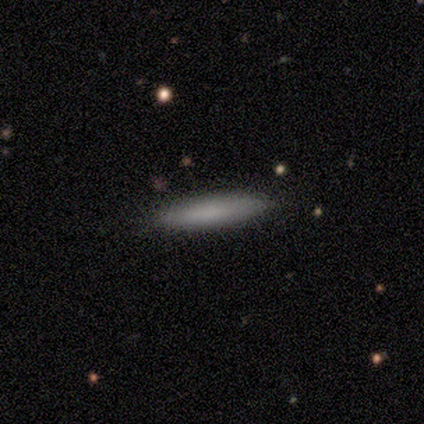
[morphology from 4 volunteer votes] Volunteers were most divided on "merging": none: 75%, minor disturbance: 25%, major disturbance: 0%, merger: 0%. More confident: smooth or featured — smooth (100%); how rounded — cigar-shaped (100%).